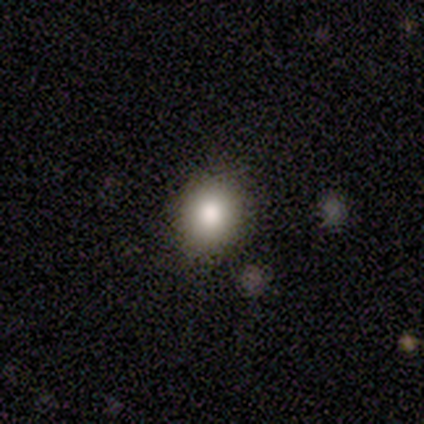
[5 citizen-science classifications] Smooth or featured? 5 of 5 (100%) said smooth. How rounded? 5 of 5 (100%) said round. Merging? 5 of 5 (100%) said none.